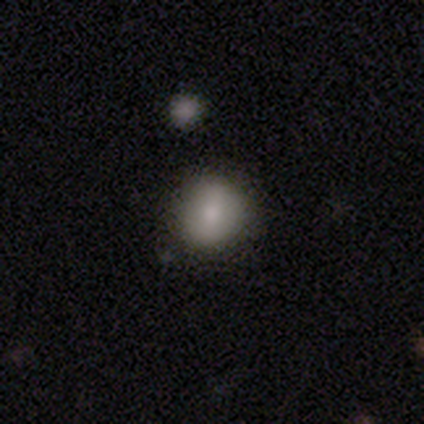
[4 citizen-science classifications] This appears to be a smooth galaxy with no disk features (75%) that is round (100%). Merging: none (100%).